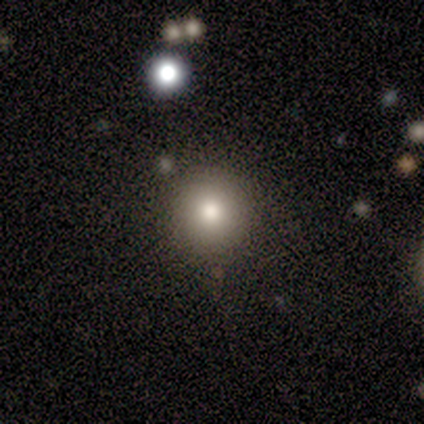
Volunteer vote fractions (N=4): Overall: smooth (100%). How rounded: round (100%). Merging: none (100%).